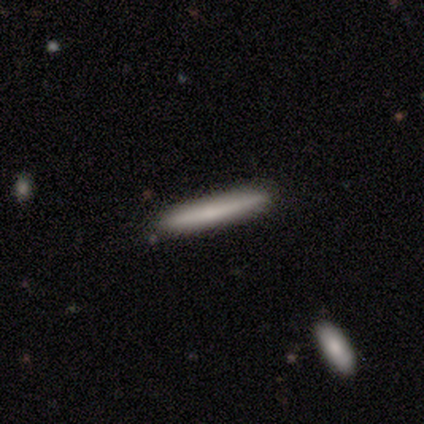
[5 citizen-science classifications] Smooth or featured?
  - smooth: 80% *
  - featured or disk: 20%
  - star or artifact: 0%
How rounded?
  - cigar-shaped: 100% *
  - round: 0%
  - in between: 0%
Merging?
  - none: 100% *
  - minor disturbance: 0%
  - major disturbance: 0%
  - merger: 0%